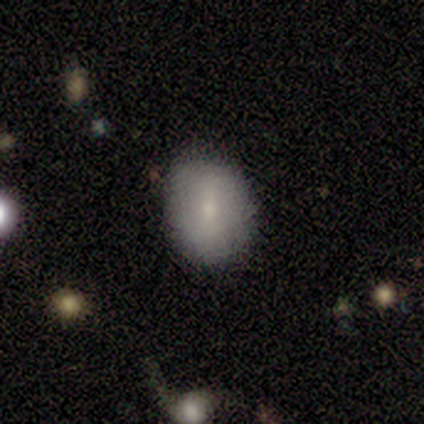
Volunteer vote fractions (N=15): A smooth galaxy with no disk features (80%) that is round (50%). Merging: none (67%).